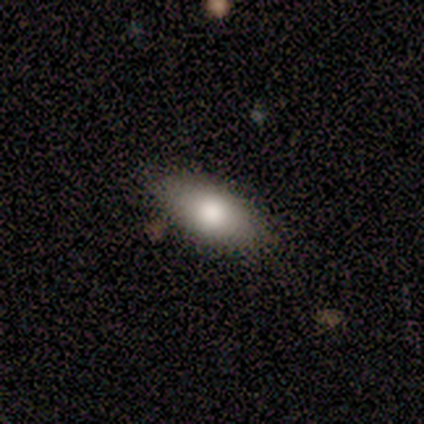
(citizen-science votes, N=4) This is likely a smooth galaxy (75%). How rounded: likely in between (67%). Merging: likely none (75%).